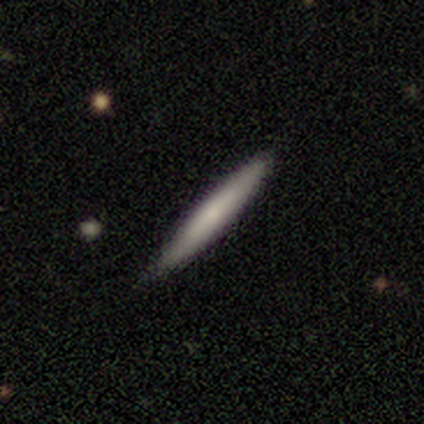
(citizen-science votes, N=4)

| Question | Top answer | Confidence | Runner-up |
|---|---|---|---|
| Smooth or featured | smooth | 75% | featured or disk (25%) |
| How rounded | cigar-shaped | 100% | — |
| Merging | none | 50% | tied: minor disturbance (50%) |